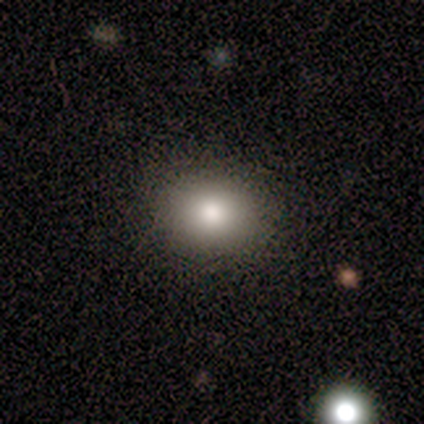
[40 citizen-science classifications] Smooth or featured? smooth (68%)
How rounded? round (52%)
Merging? none (91%)